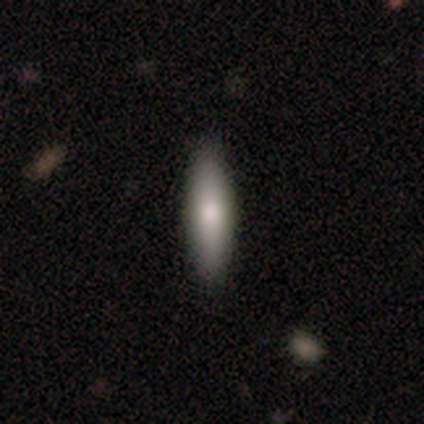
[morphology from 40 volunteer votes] Overall: smooth (80%). How rounded: cigar-shaped (72%). Merging: none (92%).